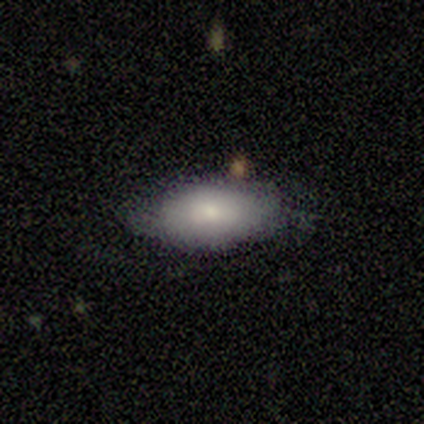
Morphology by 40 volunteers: Overall: smooth (75%). How rounded: in between (93%). Merging: none (56%; minor disturbance 39%).